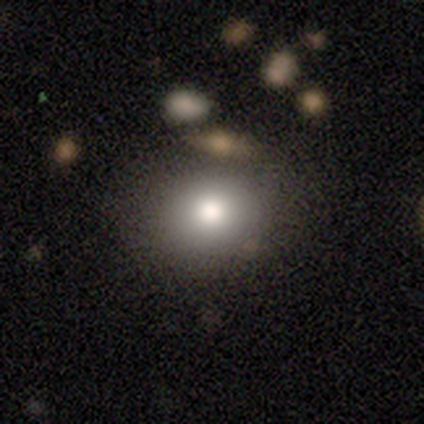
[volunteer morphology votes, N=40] Smooth or featured: smooth — 80% (star or artifact — 15%)
How rounded: round — 69% (in between — 31%)
Merging: none — 79% (minor disturbance — 15%)